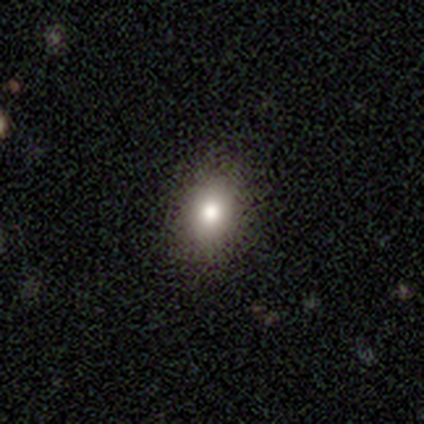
A smooth galaxy with no disk features (60%) that is in between round and cigar-shaped (67%).

Vote fractions:
- Smooth or featured? smooth: 60% / featured or disk: 20% / star or artifact: 20%
- How rounded? in between: 67% / round: 33% / cigar-shaped: 0%
- Merging? none: 100% / minor disturbance: 0% / major disturbance: 0% / merger: 0%